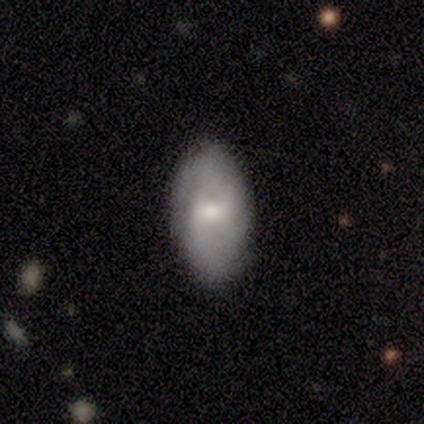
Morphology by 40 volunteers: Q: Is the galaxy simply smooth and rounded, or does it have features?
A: featured or disk — 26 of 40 (65%).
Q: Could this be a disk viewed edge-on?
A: no — 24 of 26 (92%).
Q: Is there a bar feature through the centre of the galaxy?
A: weak — 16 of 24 (67%).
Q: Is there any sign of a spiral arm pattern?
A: yes — 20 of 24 (83%).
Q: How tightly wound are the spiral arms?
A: tight — 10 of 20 (50%).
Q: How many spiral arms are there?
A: can't tell — 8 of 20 (40%).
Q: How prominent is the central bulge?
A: moderate — 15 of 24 (62%).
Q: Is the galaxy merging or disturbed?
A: none — 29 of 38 (76%).